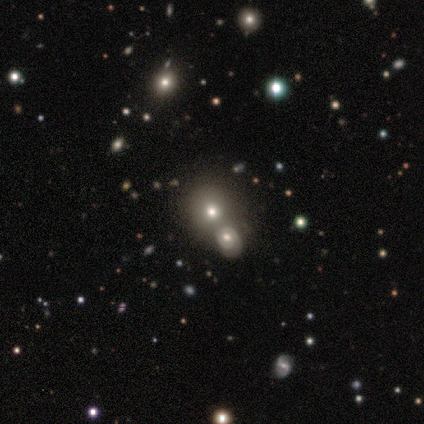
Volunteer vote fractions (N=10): Morphology: type=featured or disk (50%); edge-on=no (80%); bar=no (100%); spiral arms=yes (50%, tied with no); winding=loose (100%); arm count=2 (100%); bulge=moderate (50%, tied with small); merging=none (44%).